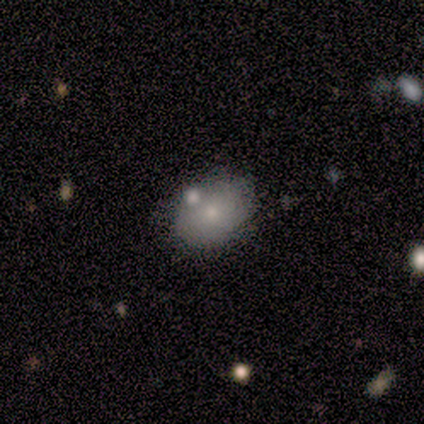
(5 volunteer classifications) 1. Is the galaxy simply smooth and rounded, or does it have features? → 60% smooth, 20% featured or disk, 20% star or artifact.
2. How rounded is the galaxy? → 100% in between, 0% round, 0% cigar-shaped.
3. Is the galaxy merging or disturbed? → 100% none, 0% minor disturbance, 0% major disturbance, 0% merger.